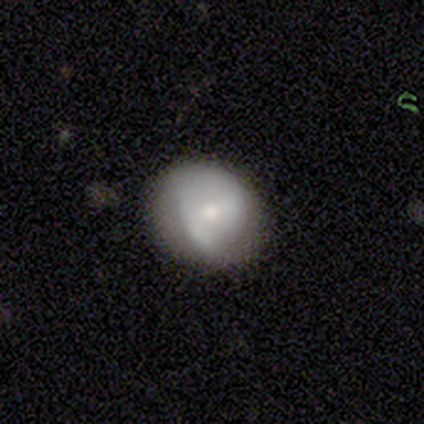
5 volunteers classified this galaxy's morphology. type=smooth (40%, tied with featured or disk); roundness=round (50%, tied with in between); merging=none (100%).